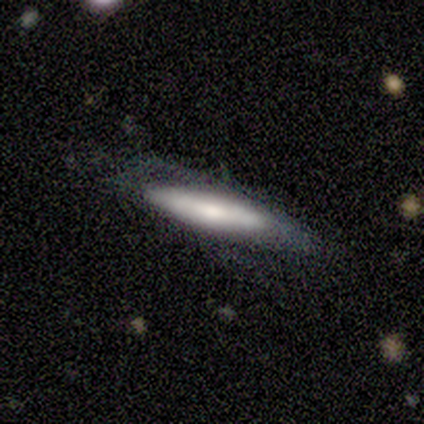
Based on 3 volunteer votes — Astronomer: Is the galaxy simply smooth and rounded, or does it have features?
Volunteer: smooth — 67%.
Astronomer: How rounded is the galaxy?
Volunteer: in between — 50%, tied with cigar-shaped at 50%.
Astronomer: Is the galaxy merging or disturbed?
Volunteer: none — 67%.